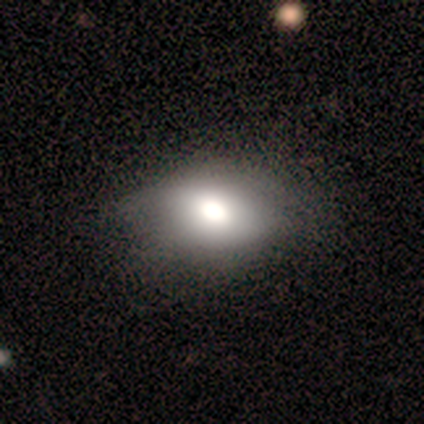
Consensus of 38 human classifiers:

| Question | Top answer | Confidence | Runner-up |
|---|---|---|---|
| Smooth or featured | smooth | 68% | featured or disk (18%) |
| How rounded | in between | 69% | round (27%) |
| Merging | none | 42% | minor disturbance (12%) |